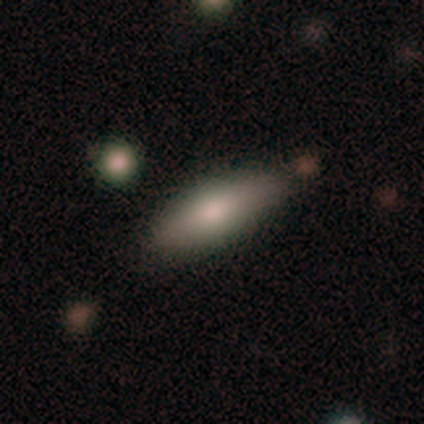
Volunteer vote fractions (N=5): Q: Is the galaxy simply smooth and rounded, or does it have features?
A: smooth — 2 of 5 (40%, tied with star or artifact).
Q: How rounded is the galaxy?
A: in between — 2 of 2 (100%).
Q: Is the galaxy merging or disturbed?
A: none — 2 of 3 (67%).